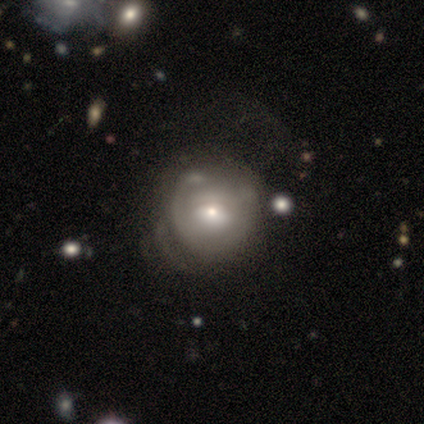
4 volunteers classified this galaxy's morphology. smooth 50% (tied), featured or disk 50% (tied), star or artifact 0%. Down the decision tree: how rounded — round (100%); merging — major disturbance (50%).